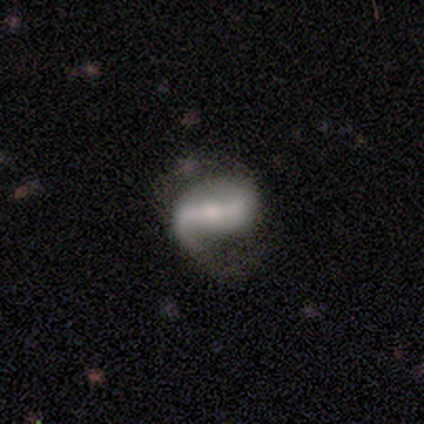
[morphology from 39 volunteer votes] Smooth or featured: featured or disk — 85% (smooth — 13%)
Edge-on disk: no — 97% (yes — 3%)
Bar: strong — 69% (weak — 16%)
Spiral arms: yes — 94% (no — 6%)
Spiral winding: loose — 53% (medium — 43%)
Spiral arm count: 2 — 80% (1 — 17%)
Bulge size: moderate — 50% (small — 41%)
Merging: none — 37% (major disturbance — 16%)